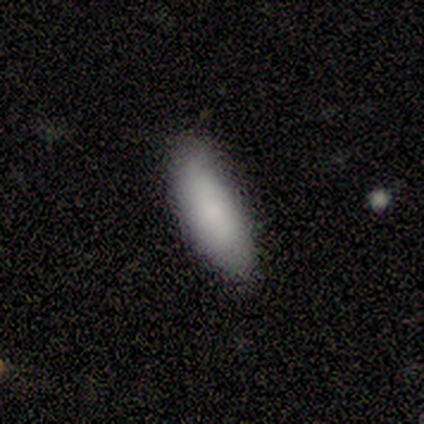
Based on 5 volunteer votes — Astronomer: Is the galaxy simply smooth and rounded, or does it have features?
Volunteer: smooth — 80%.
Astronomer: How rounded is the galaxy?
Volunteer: in between — 100%.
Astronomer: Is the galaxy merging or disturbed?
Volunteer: none — 40%, tied with minor disturbance at 40%.